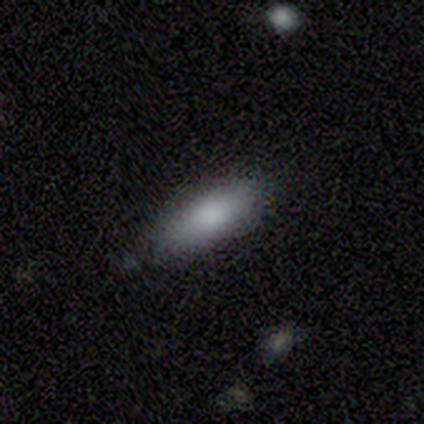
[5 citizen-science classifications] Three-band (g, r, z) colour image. It shows a smooth galaxy with no disk features (60%) that is cigar-shaped (100%). Merging: none (100%).